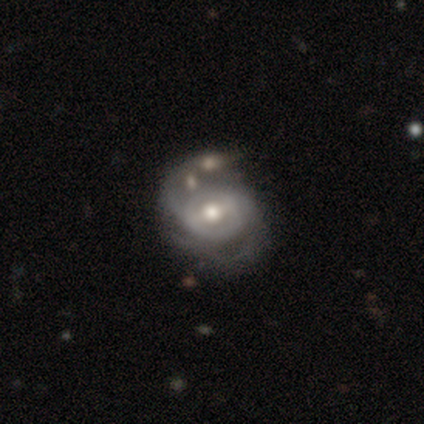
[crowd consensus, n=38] Overall: featured or disk (89%). Edge-on disk: no (100%). Bar: weak (68%). Spiral arms: yes (91%). Spiral arm count: 2 (65%). Spiral winding: medium (65%; tight 29%). Bulge size: moderate (71%). Merging: none (41%; minor disturbance 32%).